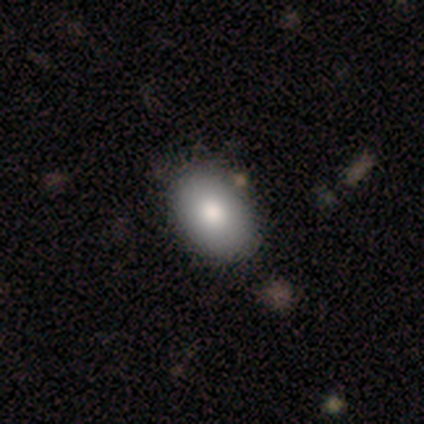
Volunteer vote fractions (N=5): Smooth or featured? 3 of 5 (60%) said smooth. How rounded? 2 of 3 (67%) said in between. Merging? 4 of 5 (80%) said none.